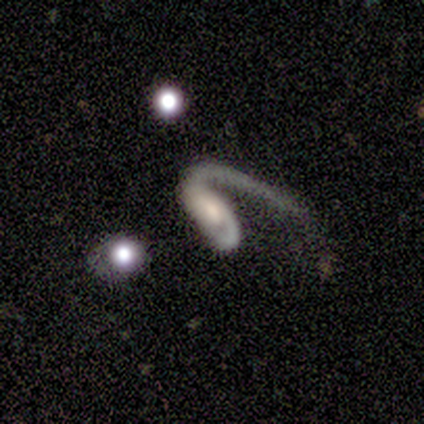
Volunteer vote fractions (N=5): Smooth or featured? featured or disk (100%)
Edge-on disk? no (100%)
Bar? no (80%)
Spiral arms? yes (80%)
Spiral winding? loose (75%)
Spiral arm count? 1 (100%)
Bulge size? small (40%)
Merging? none (60%)